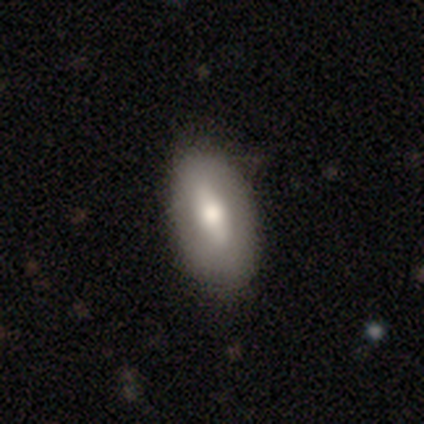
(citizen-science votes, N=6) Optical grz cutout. It shows a smooth galaxy with no disk features (67%) that is in between round and cigar-shaped (100%). Merging: none (100%).